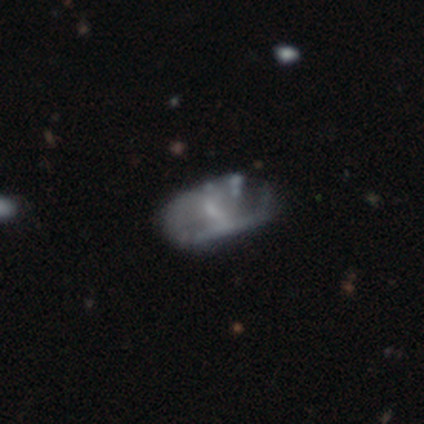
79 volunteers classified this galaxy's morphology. Overall: featured or disk (71%). Edge-on disk: no (98%). Bar: weak (47%; no 44%). Spiral arms: no (69%; yes 31%). Bulge size: small (56%; none 31%). Merging: major disturbance (18%; minor disturbance 17%).